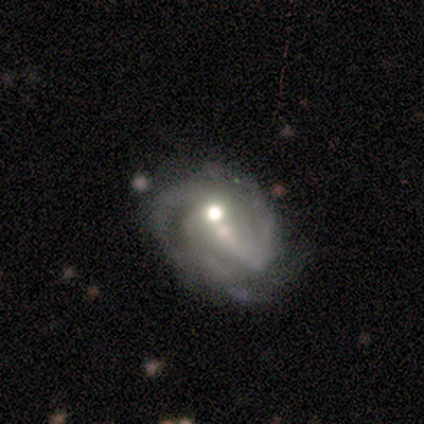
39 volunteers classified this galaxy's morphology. Smooth or featured? 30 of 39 (77%) said featured or disk. Edge-on disk? 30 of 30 (100%) said no. Bar? 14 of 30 (47%) said no. Spiral arms? 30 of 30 (100%) said yes. Spiral winding? 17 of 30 (57%) said tight. Spiral arm count? 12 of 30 (40%) said 3. Bulge size? 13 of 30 (43%) said moderate. Merging? 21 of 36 (58%) said none.